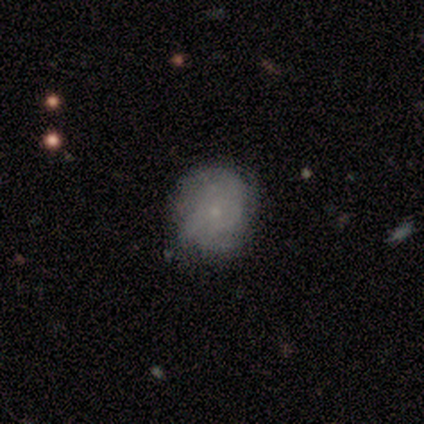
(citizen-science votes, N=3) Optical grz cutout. It shows a smooth galaxy with no disk features (67%) that is round (50%, tied with in between). Merging: none (100%).